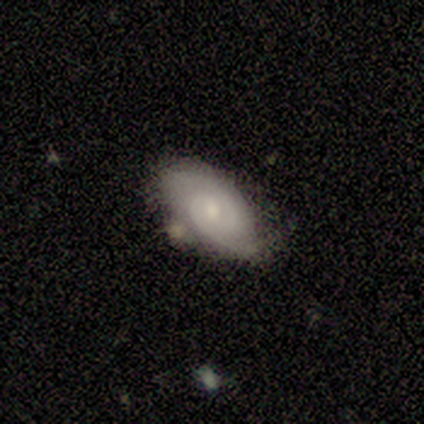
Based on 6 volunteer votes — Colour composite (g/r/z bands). It shows a featured or disk galaxy (83%) with no bar (80%), 2 (100%) tight (80%) spiral arms (100%) and a small central bulge (60%). Merging: none (83%).